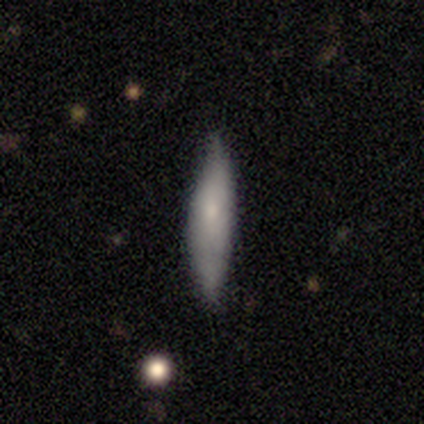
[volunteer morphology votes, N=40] Smooth or featured? smooth (78%)
How rounded? cigar-shaped (90%)
Merging? none (70%)